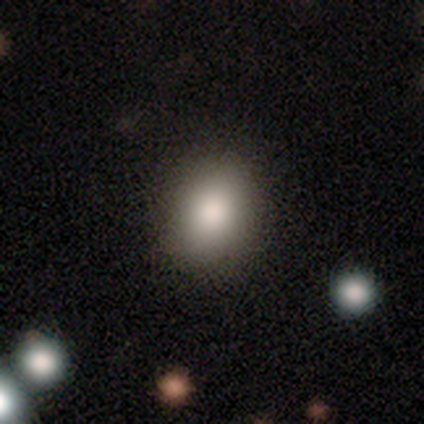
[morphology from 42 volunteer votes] Smooth or featured: smooth — 81% (featured or disk — 10%)
How rounded: round — 68% (in between — 32%)
Merging: none — 89% (minor disturbance — 8%)